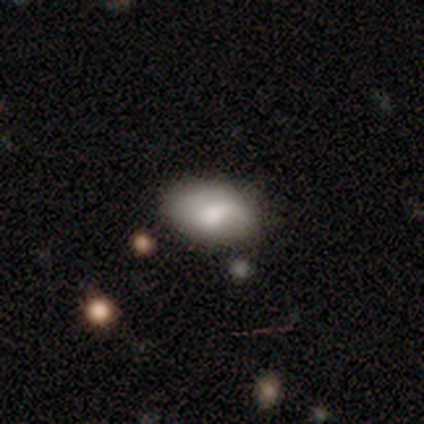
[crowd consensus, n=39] smooth 67%, featured or disk 21%, star or artifact 13%. Down the decision tree: how rounded — in between (96%); merging — none (56%).